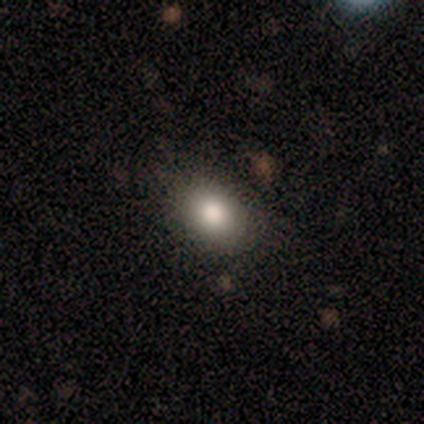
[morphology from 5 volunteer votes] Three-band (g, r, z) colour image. It shows a smooth galaxy with no disk features (60%) that is round (100%). Merging: none (80%).